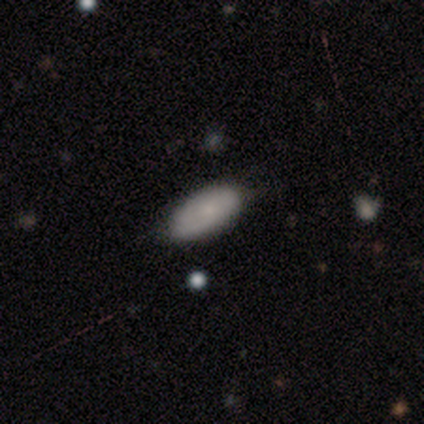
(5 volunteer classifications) smooth 100%, featured or disk 0%, star or artifact 0%. Down the decision tree: how rounded — in between (100%); merging — none (60%).